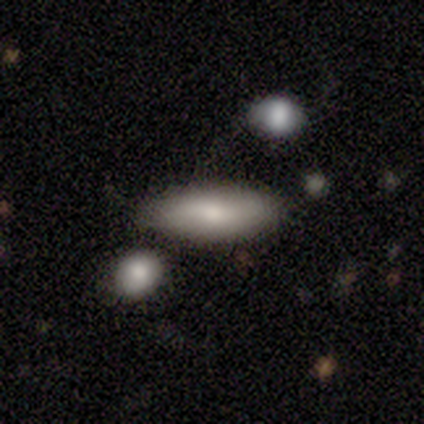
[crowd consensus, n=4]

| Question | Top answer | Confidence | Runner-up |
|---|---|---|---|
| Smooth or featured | smooth | 75% | featured or disk (25%) |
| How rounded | in between | 67% | cigar-shaped (33%) |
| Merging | none | 50% | minor disturbance (25%) |